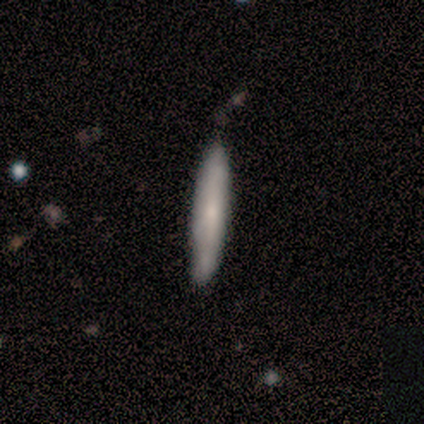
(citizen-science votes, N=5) smooth-or-featured: smooth: 80% | featured or disk: 20% | star or artifact: 0%
  how-rounded: cigar-shaped: 100% | round: 0% | in between: 0%
  merging: none: 80% | minor disturbance: 20% | major disturbance: 0% | merger: 0%